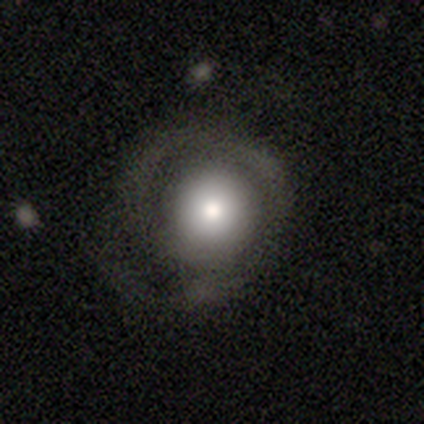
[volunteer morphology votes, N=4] This is likely a smooth galaxy (75%). How rounded: clearly round (100%). Merging: possibly none (50%).